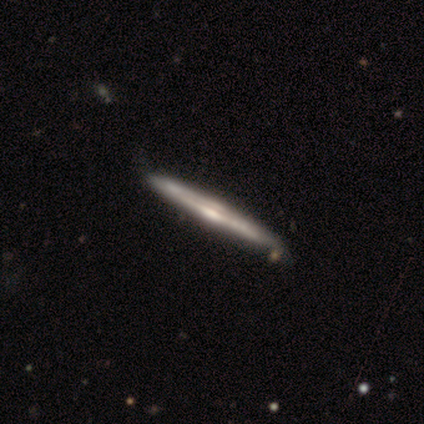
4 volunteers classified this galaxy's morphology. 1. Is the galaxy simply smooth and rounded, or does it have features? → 75% featured or disk, 25% smooth, 0% star or artifact.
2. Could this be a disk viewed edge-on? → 100% yes, 0% no.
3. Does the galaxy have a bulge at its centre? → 100% rounded, 0% boxy, 0% none.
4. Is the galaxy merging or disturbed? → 100% none, 0% minor disturbance, 0% major disturbance, 0% merger.